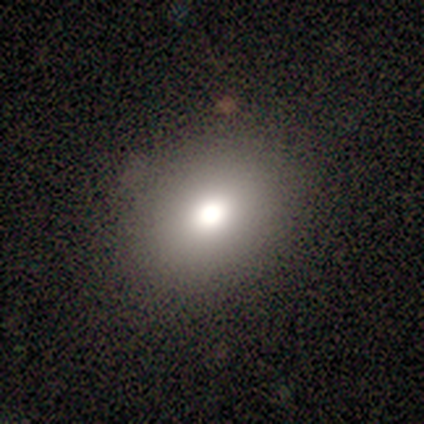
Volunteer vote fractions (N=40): smooth_or_featured: smooth (p=0.68) [alt: star or artifact p=0.17]
how_rounded: in between (p=0.56) [alt: round p=0.44]
merging: none (p=0.94) [alt: minor disturbance p=0.06]